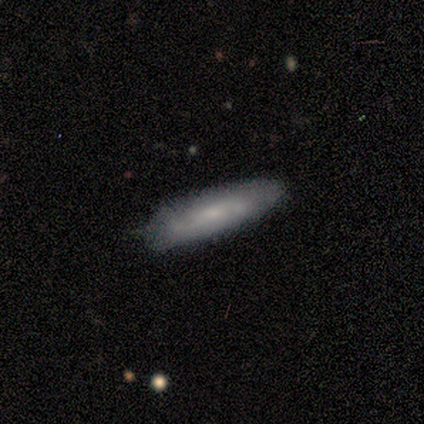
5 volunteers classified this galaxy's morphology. Smooth or featured?
  - featured or disk: 60% *
  - smooth: 40%
  - star or artifact: 0%
Edge-on disk?
  - no: 67% *
  - yes: 33%
Bar?
  - no: 100% *
  - strong: 0%
  - weak: 0%
Spiral arms?
  - yes: 100% *
  - no: 0%
Spiral winding?
  - tight: 50% * (tied)
  - medium: 50% * (tied)
  - loose: 0%
Spiral arm count?
  - 2: 50% * (tied)
  - can't tell: 50% * (tied)
  - 1: 0%
  - 3: 0%
  - 4: 0%
  - more than 4: 0%
Bulge size?
  - moderate: 50% * (tied)
  - small: 50% * (tied)
  - dominant: 0%
  - large: 0%
  - none: 0%
Merging?
  - minor disturbance: 60% *
  - none: 40%
  - major disturbance: 0%
  - merger: 0%